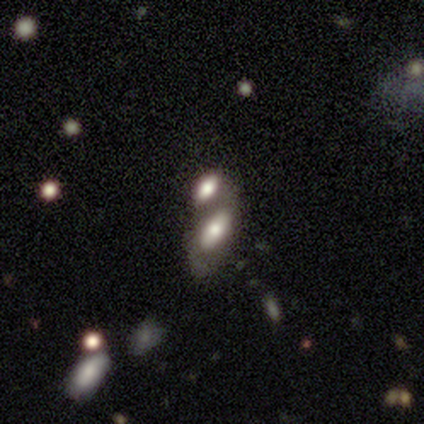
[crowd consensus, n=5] A featured or disk galaxy (60%) with no bar (100%), no spiral arms (67%) and a moderate central bulge (100%). Merging: merger (60%).